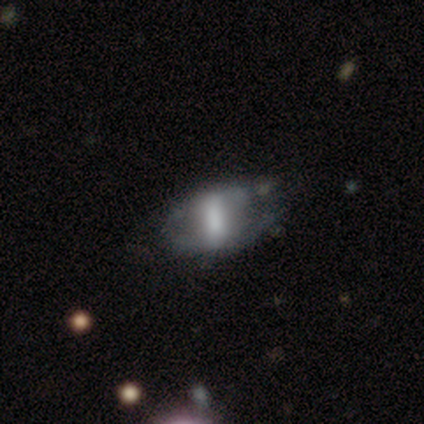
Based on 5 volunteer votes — smooth 60%, featured or disk 40%, star or artifact 0%. Down the decision tree: how rounded — in between (67%); merging — minor disturbance (80%).